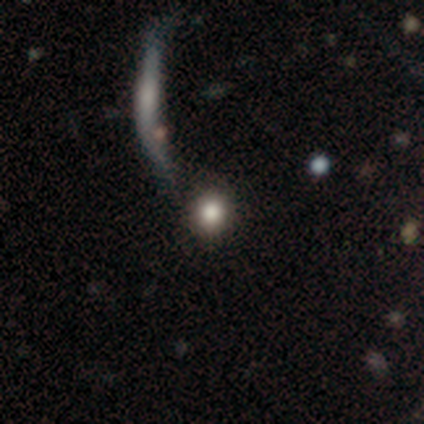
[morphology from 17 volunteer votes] Smooth or featured? smooth (65%)
How rounded? round (82%)
Merging? none (64%)